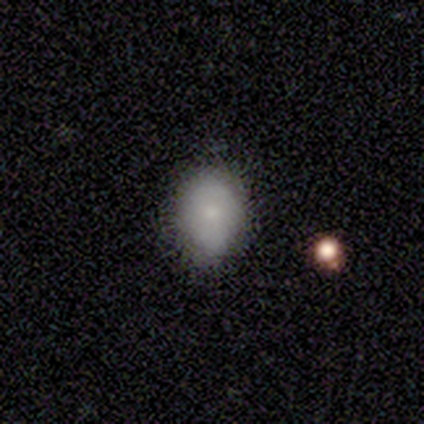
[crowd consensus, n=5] Smooth or featured?
  - smooth: 80% *
  - featured or disk: 20%
  - star or artifact: 0%
How rounded?
  - round: 50% * (tied)
  - in between: 50% * (tied)
  - cigar-shaped: 0%
Merging?
  - none: 60% *
  - minor disturbance: 40%
  - major disturbance: 0%
  - merger: 0%